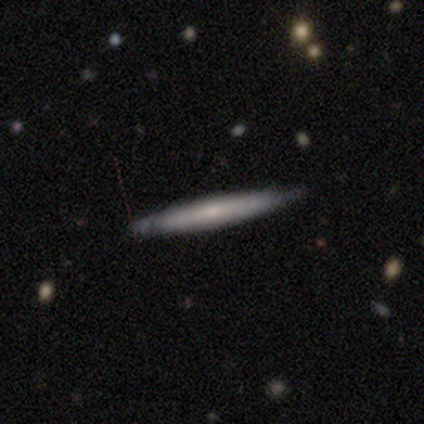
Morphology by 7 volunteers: Smooth or featured: smooth — 57% (featured or disk — 43%)
How rounded: cigar-shaped — 100%
Merging: none — 100%